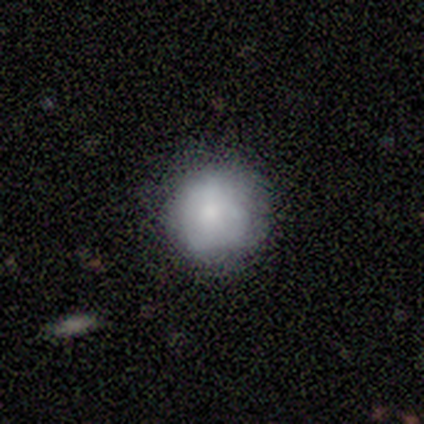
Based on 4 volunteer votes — Smooth or featured?
  - smooth: 100% *
  - featured or disk: 0%
  - star or artifact: 0%
How rounded?
  - round: 100% *
  - in between: 0%
  - cigar-shaped: 0%
Merging?
  - none: 75% *
  - major disturbance: 25%
  - minor disturbance: 0%
  - merger: 0%